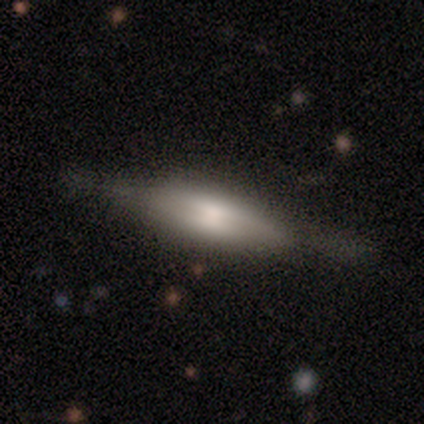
This is possibly a featured or disk galaxy (52%). It is clearly viewed edge-on (87%). Edge-on bulge: possibly boxy (52%). Merging: likely none (73%).